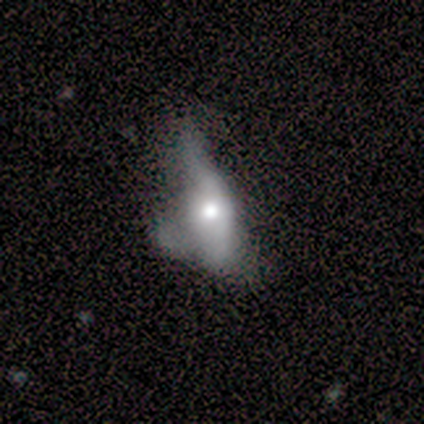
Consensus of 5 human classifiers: Morphology: type=featured or disk (60%); edge-on=no (100%); bar=no (100%); spiral arms=no (100%); bulge=moderate (67%); merging=major disturbance (80%).